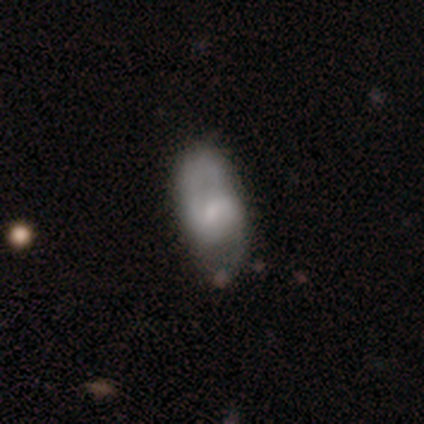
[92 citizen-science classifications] This is possibly a featured or disk galaxy (55%). It is clearly not viewed edge-on (96%). Bar: possibly weak (51%). Spiral arm pattern: clearly yes (90%). Spiral arm count: clearly 2 (91%). Spiral winding: possibly medium (52%). Central bulge: likely small (63%). Merging: possibly none (50%).